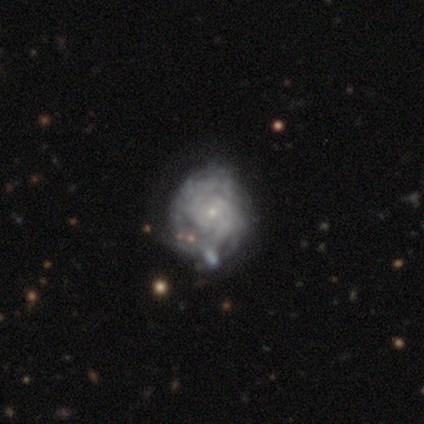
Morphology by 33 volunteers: type=featured or disk (82%); edge-on=no (100%); bar=no (89%); spiral arms=yes (89%); winding=tight (75%); arm count=can't tell (42%); bulge=small (89%); merging=none (48%).